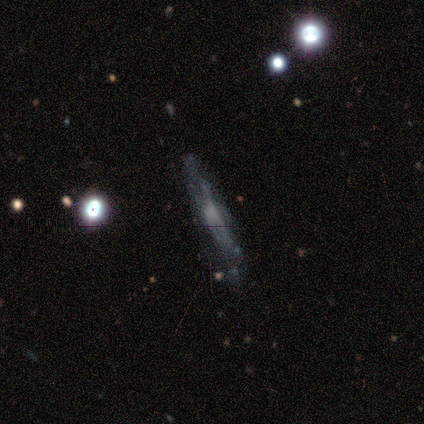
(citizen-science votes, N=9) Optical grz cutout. It shows a featured or disk galaxy (67%) viewed edge-on (100%) with no central bulge (67%). Merging: none (67%).